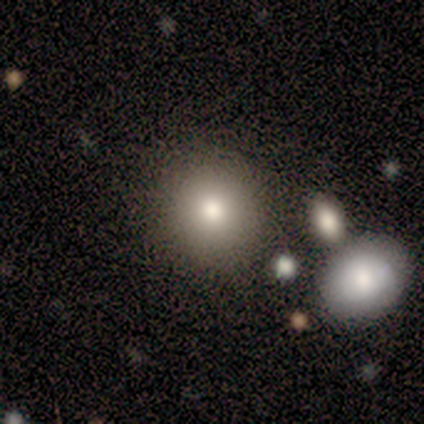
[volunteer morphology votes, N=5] This is likely a smooth galaxy (60%). How rounded: clearly round (100%). Merging: clearly none (100%).